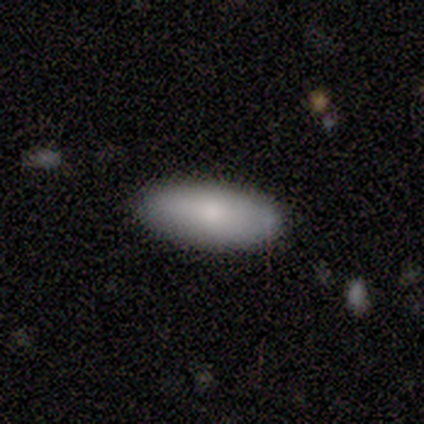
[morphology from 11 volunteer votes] Overall: smooth (100%). How rounded: in between (91%). Merging: none (82%).